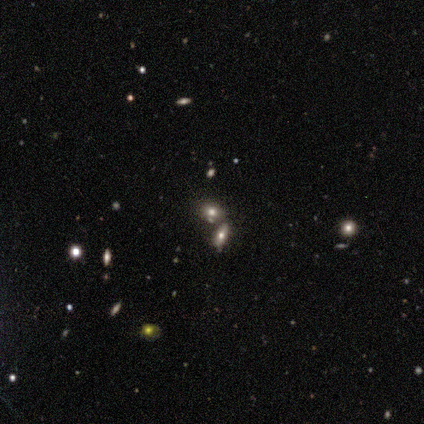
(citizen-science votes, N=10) Smooth or featured? smooth (60%)
How rounded? in between (67%)
Merging? none (50%)